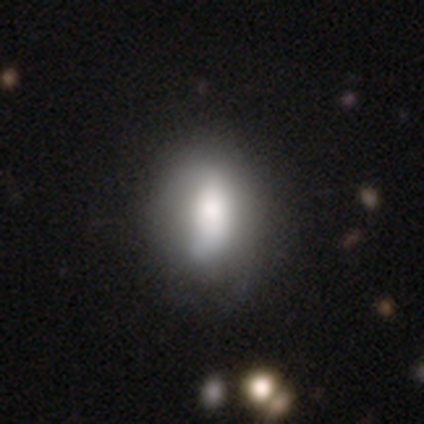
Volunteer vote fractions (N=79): smooth-or-featured: smooth: 72% | featured or disk: 23% | star or artifact: 5%
  how-rounded: in between: 75% | round: 19% | cigar-shaped: 5%
  merging: none: 29% | minor disturbance: 11% | merger: 9% | major disturbance: 7%